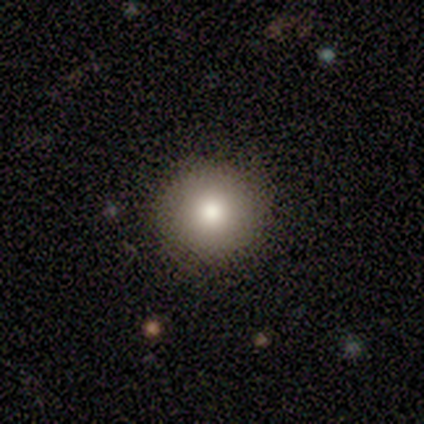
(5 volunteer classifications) smooth-or-featured: smooth: 100% | featured or disk: 0% | star or artifact: 0%
  how-rounded: round: 100% | in between: 0% | cigar-shaped: 0%
  merging: none: 100% | minor disturbance: 0% | major disturbance: 0% | merger: 0%